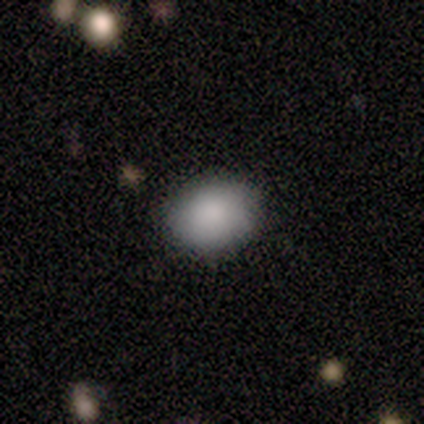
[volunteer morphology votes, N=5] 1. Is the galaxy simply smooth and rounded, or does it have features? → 80% smooth, 20% featured or disk, 0% star or artifact.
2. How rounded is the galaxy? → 50% round (tied), 50% in between (tied), 0% cigar-shaped.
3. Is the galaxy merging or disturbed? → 100% none, 0% minor disturbance, 0% major disturbance, 0% merger.